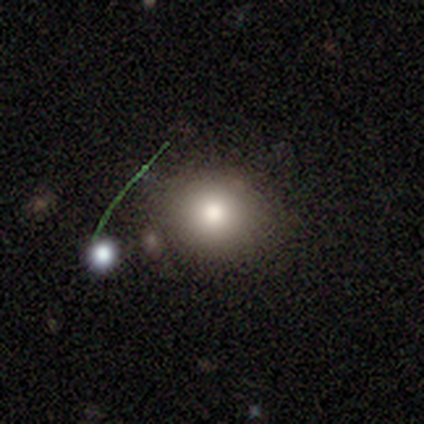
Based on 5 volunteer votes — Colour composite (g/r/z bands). It shows a smooth galaxy with no disk features (80%) that is round (100%). Merging: none (40%, tied with major disturbance).